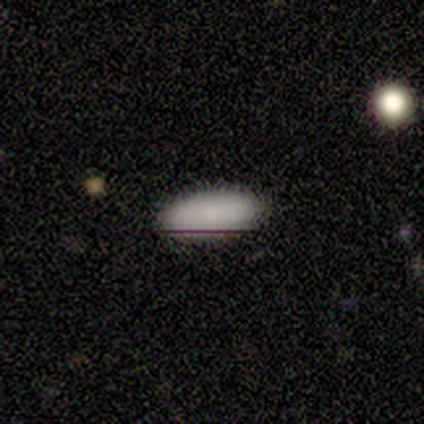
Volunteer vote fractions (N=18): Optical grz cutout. It shows a smooth galaxy with no disk features (78%) that is in between round and cigar-shaped (93%). Merging: none (87%).